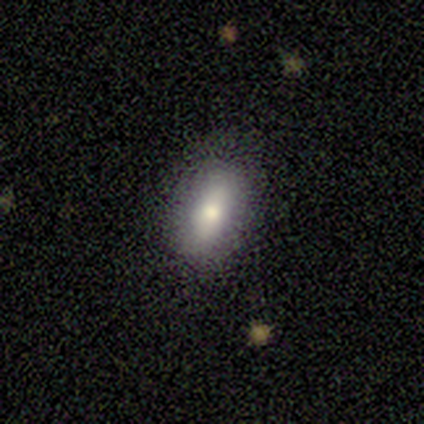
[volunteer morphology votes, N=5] Smooth or featured? smooth (80%)
How rounded? in between (50%)
Merging? none (40%, tied with major disturbance)